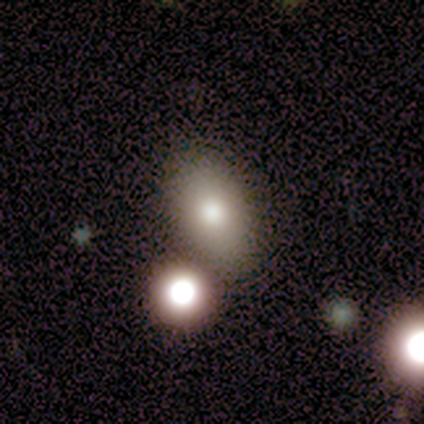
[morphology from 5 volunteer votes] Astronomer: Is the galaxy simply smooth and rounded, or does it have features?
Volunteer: smooth — 80%.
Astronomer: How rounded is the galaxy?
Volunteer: in between — 100%.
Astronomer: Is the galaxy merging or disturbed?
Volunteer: none — 75%.